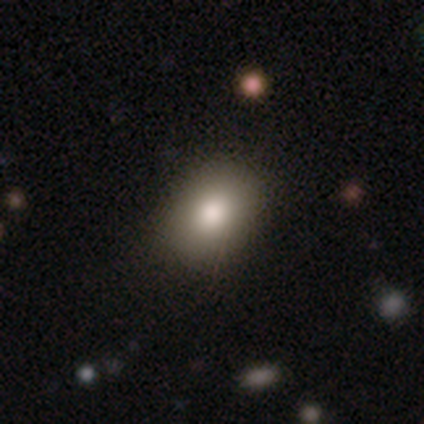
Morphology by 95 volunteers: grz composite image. It shows a smooth galaxy with no disk features (79%) that is in between round and cigar-shaped (75%). Merging: none (80%).